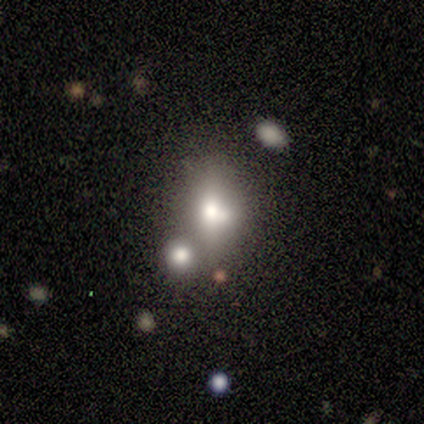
smooth 33% (tied), featured or disk 33% (tied), star or artifact 33% (tied). Down the decision tree: how rounded — round (50%, tied with in between); merging — none (50%).